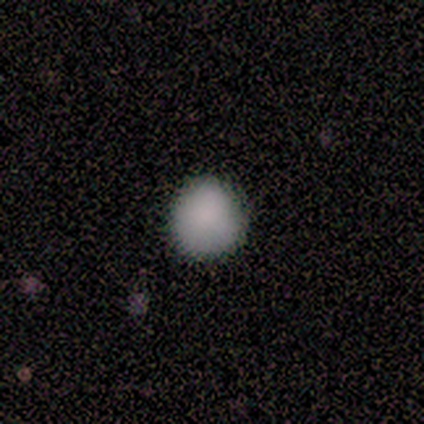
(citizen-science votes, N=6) A smooth galaxy with no disk features (67%) that is round (100%).

Vote fractions:
- Smooth or featured? smooth: 67% / star or artifact: 33% / featured or disk: 0%
- How rounded? round: 100% / in between: 0% / cigar-shaped: 0%
- Merging? none: 100% / minor disturbance: 0% / major disturbance: 0% / merger: 0%